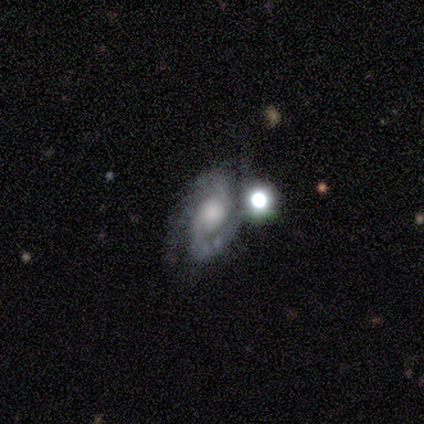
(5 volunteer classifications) smooth_or_featured: featured or disk (p=1.00)
disk_edge_on: no (p=1.00)
bar: weak (p=0.40) [tied with: no p=0.40]
has_spiral_arms: yes (p=0.60) [alt: no p=0.40]
spiral_winding: medium (p=1.00)
spiral_arm_count: 2 (p=1.00)
bulge_size: moderate (p=0.40) [tied with: small p=0.40]
merging: none (p=0.40) [tied with: merger p=0.40]